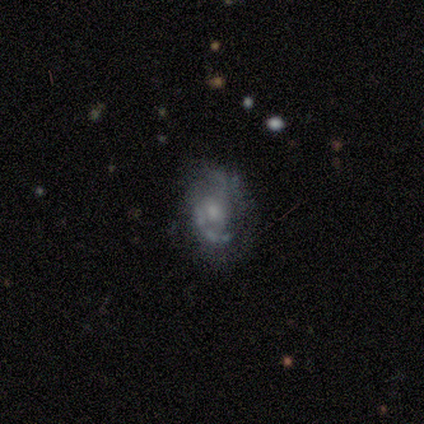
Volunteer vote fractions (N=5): Overall: featured or disk (80%). Edge-on disk: no (100%). Bar: no (75%). Spiral arms: yes (50%, tied with no). Spiral arm count: 1 (50%, tied with can't tell). Spiral winding: medium (100%). Bulge size: none (50%; moderate 25%). Merging: none (80%).